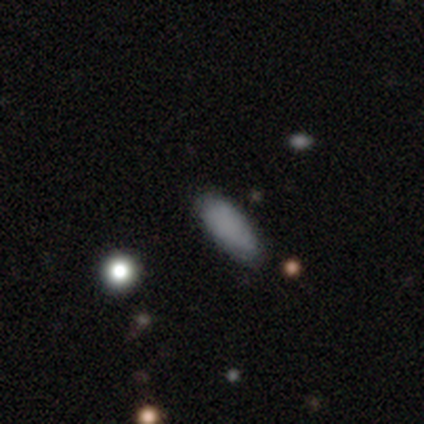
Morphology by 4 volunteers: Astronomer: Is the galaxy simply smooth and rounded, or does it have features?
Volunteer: smooth — 100%.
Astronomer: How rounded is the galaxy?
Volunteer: in between — 75%.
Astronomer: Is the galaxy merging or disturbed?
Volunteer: none — 50%, tied with minor disturbance at 50%.